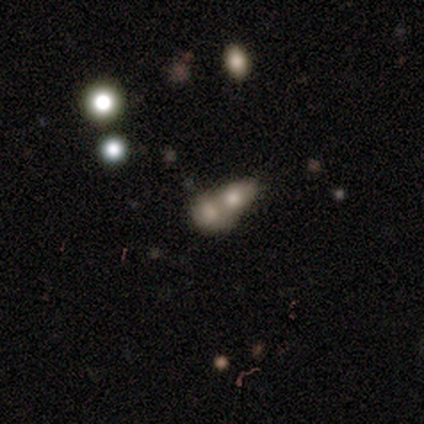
smooth-or-featured: smooth: 50% (tied) | featured or disk: 50% (tied) | star or artifact: 0%
  how-rounded: round: 100% | in between: 0% | cigar-shaped: 0%
  merging: merger: 100% | none: 0% | minor disturbance: 0% | major disturbance: 0%